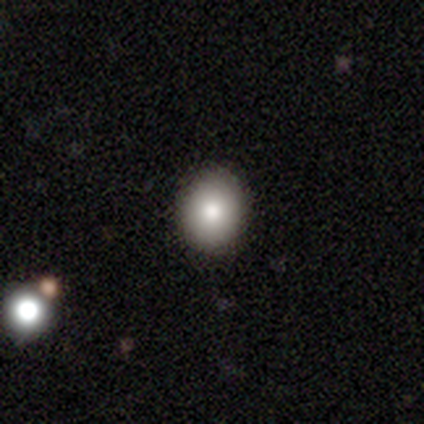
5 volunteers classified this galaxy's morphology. A smooth galaxy with no disk features (80%) that is round (100%).

Vote fractions:
- Smooth or featured? smooth: 80% / featured or disk: 20% / star or artifact: 0%
- How rounded? round: 100% / in between: 0% / cigar-shaped: 0%
- Merging? none: 80% / minor disturbance: 20% / major disturbance: 0% / merger: 0%